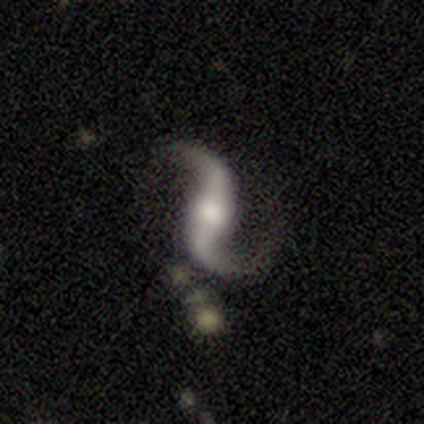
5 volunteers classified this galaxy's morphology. Smooth or featured? 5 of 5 (100%) said featured or disk. Edge-on disk? 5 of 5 (100%) said no. Bar? 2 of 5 (40%, tied with no) said strong. Spiral arms? 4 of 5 (80%) said yes. Spiral winding? 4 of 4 (100%) said loose. Spiral arm count? 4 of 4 (100%) said 2. Bulge size? 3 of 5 (60%) said moderate. Merging? 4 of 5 (80%) said none.